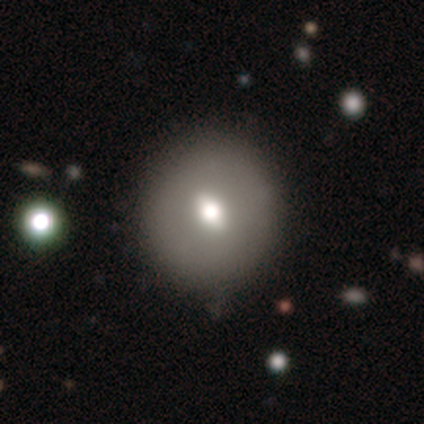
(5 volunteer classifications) A featured or disk galaxy (60%) with a weak bar (50%, tied with no), no spiral arms (100%) and a moderate central bulge (100%).

Vote fractions:
- Smooth or featured? featured or disk: 60% / smooth: 40% / star or artifact: 0%
- Edge-on disk? no: 67% / yes: 33%
- Bar? weak: 50% (tied) / no: 50% (tied) / strong: 0%
- Spiral arms? no: 100% / yes: 0%
- Bulge size? moderate: 100% / dominant: 0% / large: 0% / small: 0% / none: 0%
- Merging? none: 80% / major disturbance: 20% / minor disturbance: 0% / merger: 0%